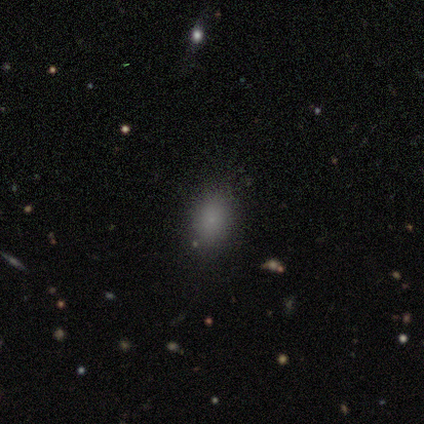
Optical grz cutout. It shows a smooth galaxy with no disk features (80%) that is in between round and cigar-shaped (50%). Merging: none (75%).